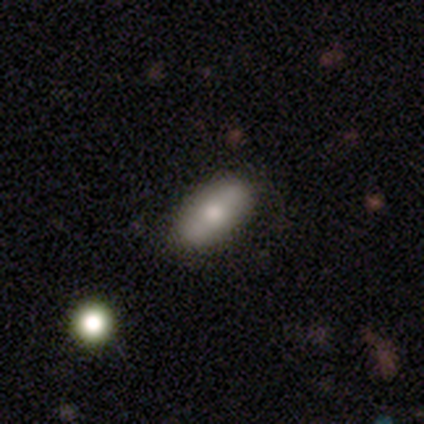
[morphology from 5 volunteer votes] smooth-or-featured: smooth: 80% | featured or disk: 20% | star or artifact: 0%
  how-rounded: in between: 100% | round: 0% | cigar-shaped: 0%
  merging: none: 80% | minor disturbance: 20% | major disturbance: 0% | merger: 0%